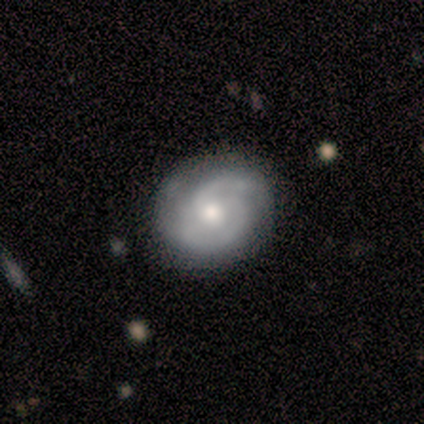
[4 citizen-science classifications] Smooth or featured: featured or disk — 100%
Edge-on disk: no — 100%
Bar: no — 100%
Spiral arms: yes — 100%
Spiral winding: tight — 75% (loose — 25%)
Spiral arm count: 2 — 75% (1 — 25%)
Bulge size: moderate — 50% (tied with small — 50%)
Merging: none — 100%